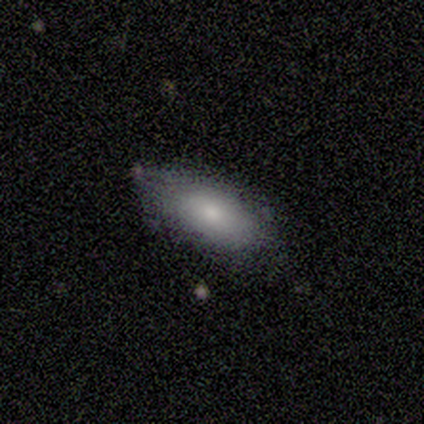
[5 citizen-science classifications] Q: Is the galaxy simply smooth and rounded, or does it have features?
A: smooth — 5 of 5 (100%).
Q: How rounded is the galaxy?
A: in between — 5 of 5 (100%).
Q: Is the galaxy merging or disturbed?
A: none — 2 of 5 (40%, tied with minor disturbance).